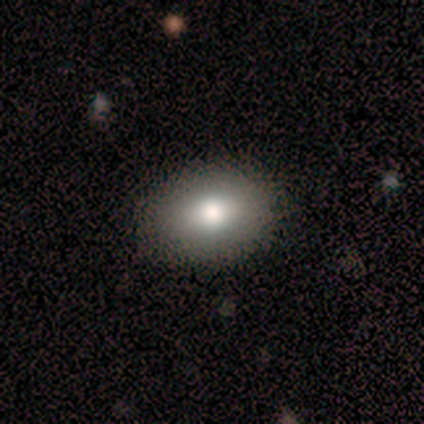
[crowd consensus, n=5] This appears to be a smooth galaxy with no disk features (60%) that is in between round and cigar-shaped (100%). Merging: none (75%).